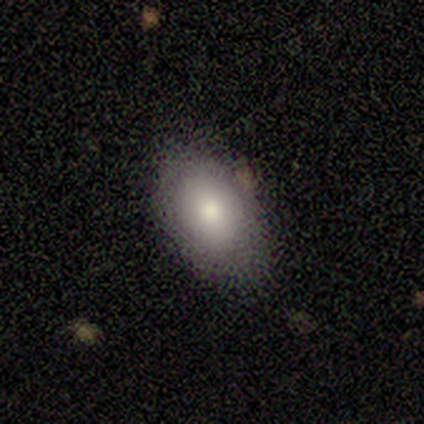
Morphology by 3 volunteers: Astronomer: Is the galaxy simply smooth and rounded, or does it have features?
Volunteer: smooth — 100%.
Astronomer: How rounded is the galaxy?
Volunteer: in between — 67%.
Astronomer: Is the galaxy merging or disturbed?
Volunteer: none — 100%.